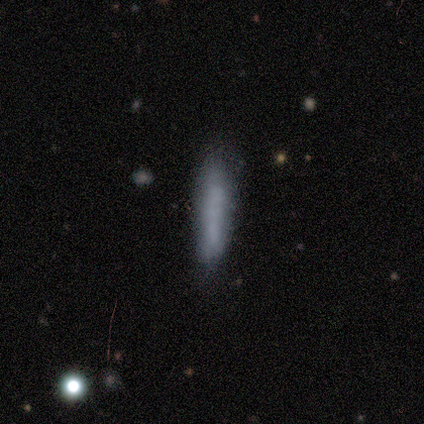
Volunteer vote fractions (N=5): Smooth or featured: smooth — 100%
How rounded: cigar-shaped — 100%
Merging: none — 60% (minor disturbance — 40%)